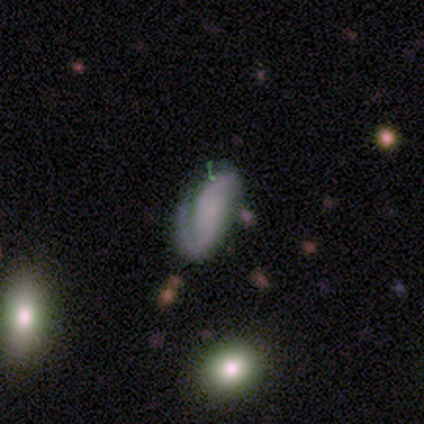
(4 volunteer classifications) A featured or disk galaxy (100%) with no bar (75%), 2 (67%) medium (67%) spiral arms (75%) and a small central bulge (50%, tied with none).

Vote fractions:
- Smooth or featured? featured or disk: 100% / smooth: 0% / star or artifact: 0%
- Edge-on disk? no: 100% / yes: 0%
- Bar? no: 75% / strong: 25% / weak: 0%
- Spiral arms? yes: 75% / no: 25%
- Spiral winding? medium: 67% / loose: 33% / tight: 0%
- Spiral arm count? 2: 67% / can't tell: 33% / 1: 0% / 3: 0% / 4: 0% / more than 4: 0%
- Bulge size? small: 50% (tied) / none: 50% (tied) / dominant: 0% / large: 0% / moderate: 0%
- Merging? minor disturbance: 75% / major disturbance: 25% / none: 0% / merger: 0%